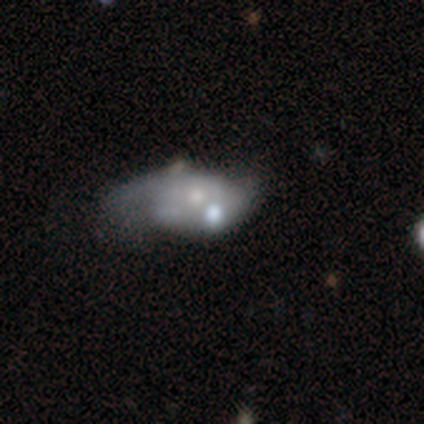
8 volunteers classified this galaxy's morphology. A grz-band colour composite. It shows a featured or disk galaxy (75%) with no bar (100%), no spiral arms (67%) and a moderate central bulge (33%, tied with small). Merging: minor disturbance (50%).